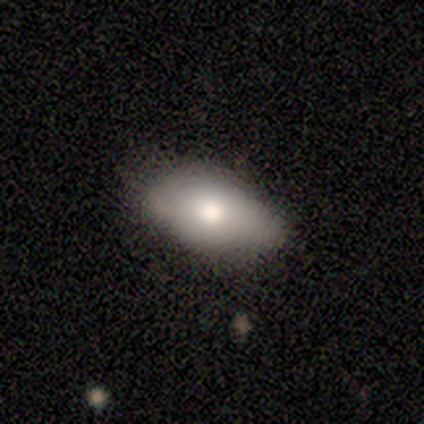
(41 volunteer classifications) Smooth or featured? smooth (83%)
How rounded? in between (100%)
Merging? none (78%)